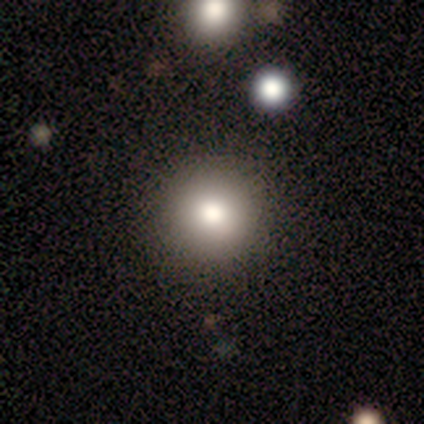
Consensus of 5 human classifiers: smooth_or_featured: smooth (p=0.60) [alt: featured or disk p=0.40]
how_rounded: round (p=1.00)
merging: none (p=1.00)